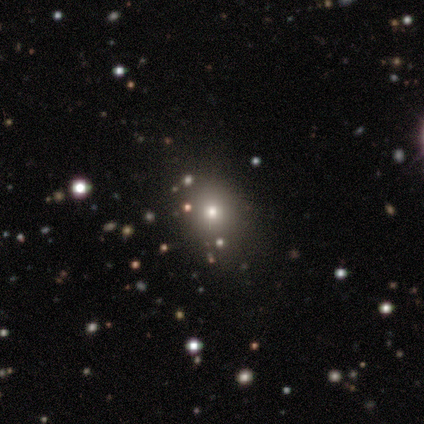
Q: Smooth or featured?
A: smooth (50%); runner-up: featured or disk (25%)
Q: How rounded?
A: round (100%)
Q: Merging?
A: none (67%); runner-up: minor disturbance (33%)